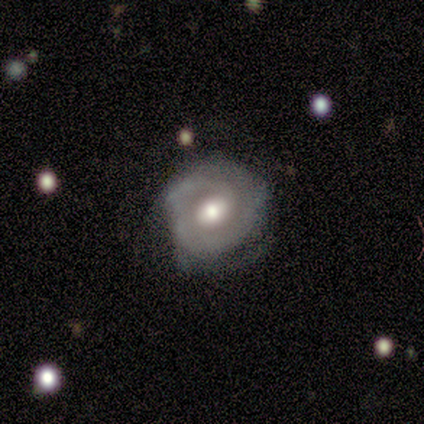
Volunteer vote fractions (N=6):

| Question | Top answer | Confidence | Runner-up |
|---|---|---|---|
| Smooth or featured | featured or disk | 100% | — |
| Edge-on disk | no | 100% | — |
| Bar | no | 67% | weak (33%) |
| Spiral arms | yes | 100% | — |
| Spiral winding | tight | 67% | medium (33%) |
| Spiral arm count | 3 | 33% | tied: can't tell (33%) |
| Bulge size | moderate | 83% | large (17%) |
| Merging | none | 67% | minor disturbance (17%) |